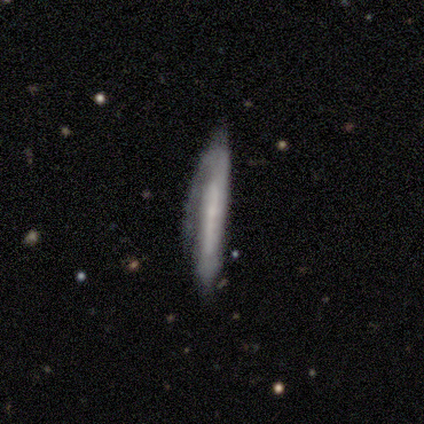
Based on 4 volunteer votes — This appears to be a featured or disk galaxy (75%) viewed edge-on (67%) with no central bulge (100%). Merging: none (75%).